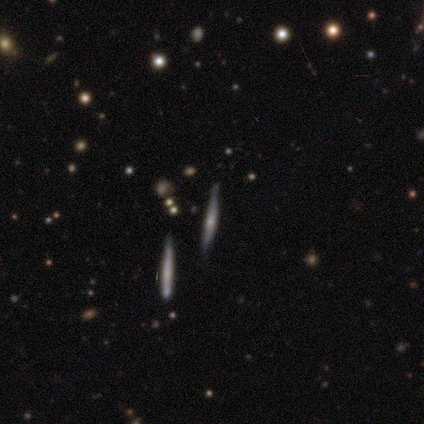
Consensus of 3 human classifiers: Q: Smooth or featured?
A: featured or disk (100%)
Q: Edge-on disk?
A: yes (100%)
Q: Edge-on bulge?
A: rounded (100%)
Q: Merging?
A: none (100%)